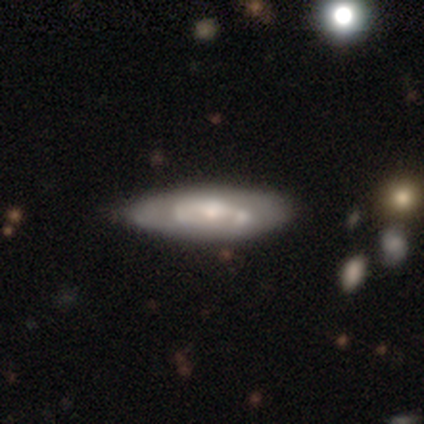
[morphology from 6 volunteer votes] Smooth or featured?
  - smooth: 50% * (tied)
  - featured or disk: 50% * (tied)
  - star or artifact: 0%
How rounded?
  - in between: 67% *
  - cigar-shaped: 33%
  - round: 0%
Merging?
  - none: 33% * (tied)
  - minor disturbance: 33% * (tied)
  - major disturbance: 33% * (tied)
  - merger: 0%